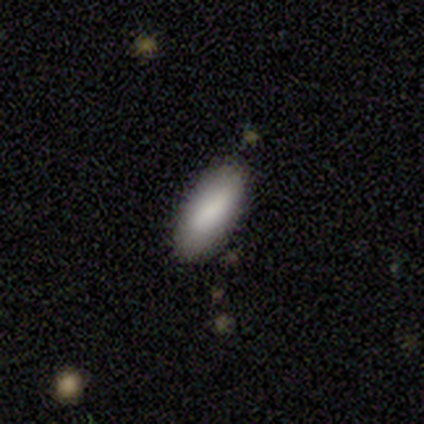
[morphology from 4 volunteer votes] smooth_or_featured: smooth (p=1.00)
how_rounded: in between (p=0.75) [alt: cigar-shaped p=0.25]
merging: none (p=0.75) [alt: minor disturbance p=0.25]